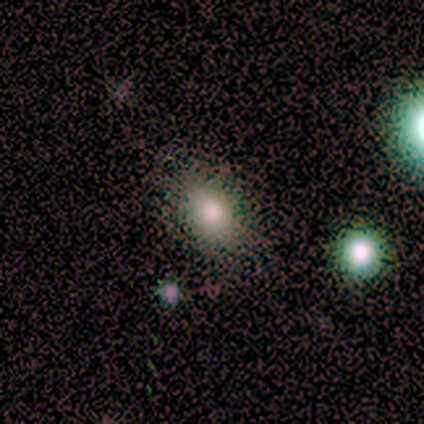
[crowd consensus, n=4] Smooth or featured?
  - smooth: 75% *
  - star or artifact: 25%
  - featured or disk: 0%
How rounded?
  - round: 67% *
  - in between: 33%
  - cigar-shaped: 0%
Merging?
  - none: 67% *
  - merger: 33%
  - minor disturbance: 0%
  - major disturbance: 0%